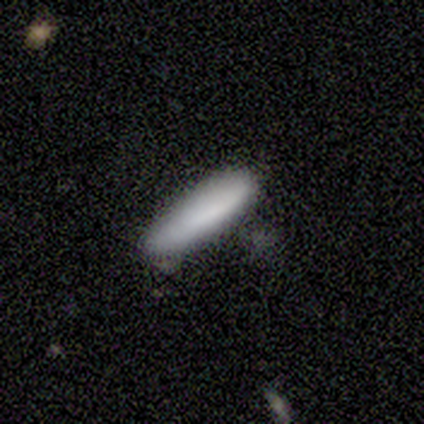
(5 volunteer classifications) This is likely a smooth galaxy (60%). How rounded: clearly cigar-shaped (100%). Merging: likely none (75%).